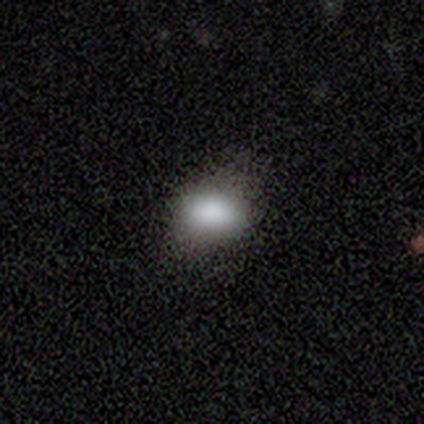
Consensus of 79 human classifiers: Q: Smooth or featured?
A: smooth (82%); runner-up: star or artifact (14%)
Q: How rounded?
A: in between (85%); runner-up: round (15%)
Q: Merging?
A: none (51%); runner-up: minor disturbance (13%)